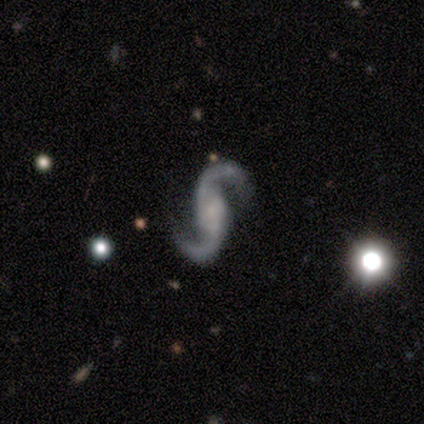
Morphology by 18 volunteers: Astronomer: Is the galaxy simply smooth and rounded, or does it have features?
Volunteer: featured or disk — 89%.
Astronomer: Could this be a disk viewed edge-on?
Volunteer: no — 88%.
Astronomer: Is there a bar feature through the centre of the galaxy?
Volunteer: no — 50% (runner-up: strong, 29%).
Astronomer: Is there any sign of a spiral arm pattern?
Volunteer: yes — 100%.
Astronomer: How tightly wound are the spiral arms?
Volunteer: loose — 64%.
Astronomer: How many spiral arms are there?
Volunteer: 2 — 93%.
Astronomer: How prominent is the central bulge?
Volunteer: small — 57%.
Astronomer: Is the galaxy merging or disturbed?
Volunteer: none — 76%.